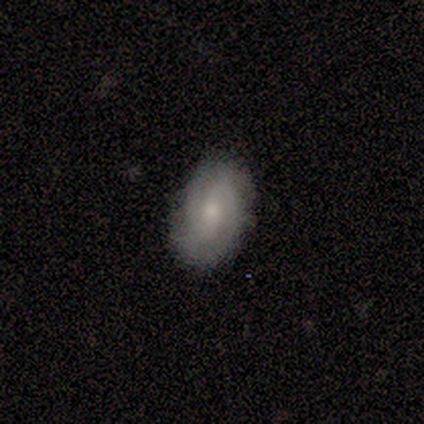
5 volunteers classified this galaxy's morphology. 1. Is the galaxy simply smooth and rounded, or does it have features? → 80% featured or disk, 20% smooth, 0% star or artifact.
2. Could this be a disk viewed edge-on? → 100% no, 0% yes.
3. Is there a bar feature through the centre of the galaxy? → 75% no, 25% strong, 0% weak.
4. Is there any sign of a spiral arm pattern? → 100% yes, 0% no.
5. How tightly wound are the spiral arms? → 75% tight, 25% medium, 0% loose.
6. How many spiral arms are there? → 50% 2 (tied), 50% 3 (tied), 0% 1, 0% 4, 0% more than 4, 0% can't tell.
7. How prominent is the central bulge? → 50% moderate (tied), 50% small (tied), 0% dominant, 0% large, 0% none.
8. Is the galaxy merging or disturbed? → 100% none, 0% minor disturbance, 0% major disturbance, 0% merger.